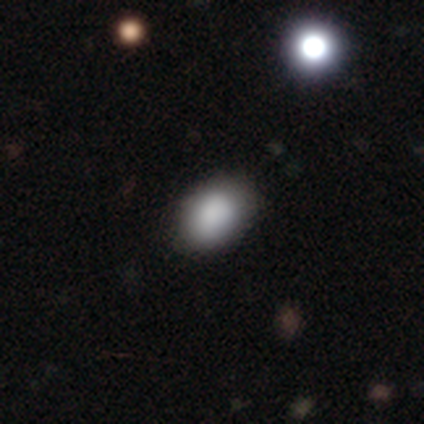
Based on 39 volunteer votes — Smooth or featured: smooth — 87% (star or artifact — 8%)
How rounded: in between — 85% (round — 15%)
Merging: none — 72% (minor disturbance — 17%)